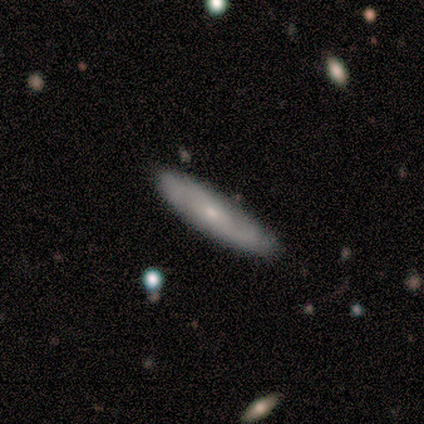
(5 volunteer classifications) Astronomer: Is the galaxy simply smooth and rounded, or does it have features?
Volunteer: featured or disk — 60% (runner-up: smooth, 40%).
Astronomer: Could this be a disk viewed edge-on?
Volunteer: yes — 67%.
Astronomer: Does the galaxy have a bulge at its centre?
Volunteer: rounded — 100%.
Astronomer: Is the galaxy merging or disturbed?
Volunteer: none — 80%.